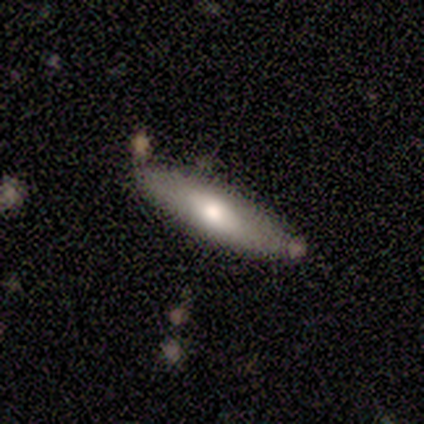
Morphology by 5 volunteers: This is clearly a smooth galaxy (80%). How rounded: possibly in between (50%, tied with cigar-shaped). Merging: likely none (75%).